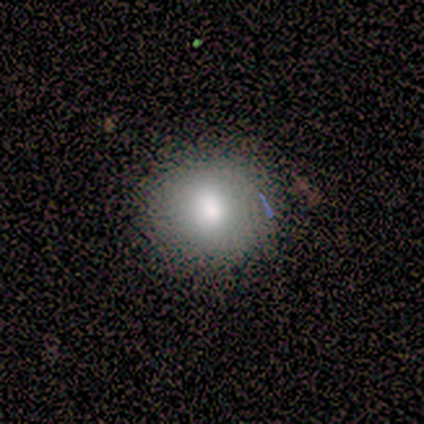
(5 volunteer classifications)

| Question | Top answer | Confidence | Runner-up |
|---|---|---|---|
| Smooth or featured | smooth | 80% | featured or disk (20%) |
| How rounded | round | 100% | — |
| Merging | none | 60% | minor disturbance (20%) |